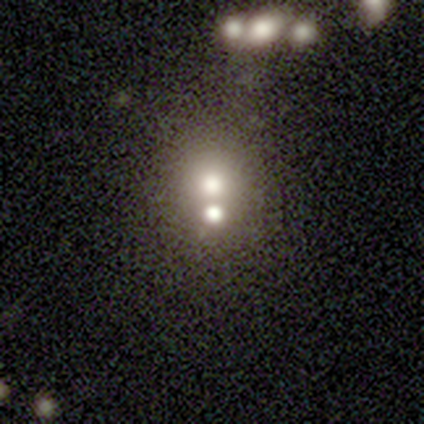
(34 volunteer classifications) Morphology: type=smooth (56%); roundness=round (74%); merging=merger (57%).